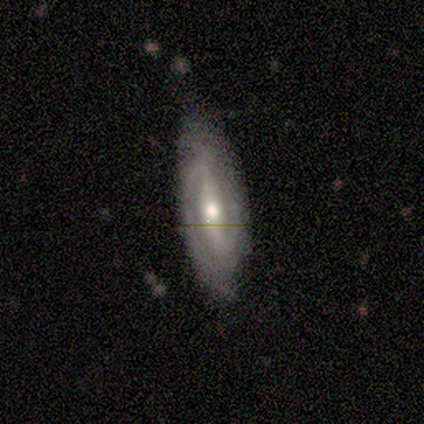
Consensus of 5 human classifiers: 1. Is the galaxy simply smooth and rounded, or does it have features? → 100% featured or disk, 0% smooth, 0% star or artifact.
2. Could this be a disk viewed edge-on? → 100% no, 0% yes.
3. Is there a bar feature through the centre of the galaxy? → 60% strong, 40% no, 0% weak.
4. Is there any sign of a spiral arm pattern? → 100% yes, 0% no.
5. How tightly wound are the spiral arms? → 60% medium, 20% tight, 20% loose.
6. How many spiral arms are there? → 100% 2, 0% 1, 0% 3, 0% 4, 0% more than 4, 0% can't tell.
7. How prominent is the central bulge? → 80% moderate, 20% small, 0% dominant, 0% large, 0% none.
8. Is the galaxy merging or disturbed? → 80% none, 20% minor disturbance, 0% major disturbance, 0% merger.